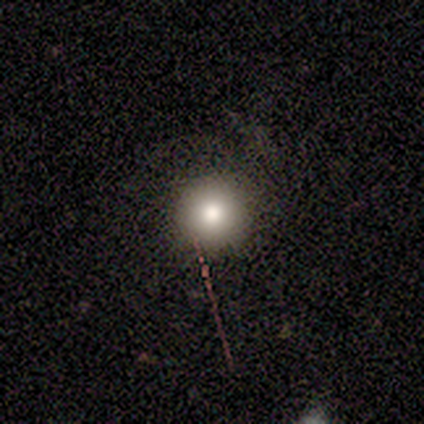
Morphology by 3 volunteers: A smooth galaxy with no disk features (100%) that is round (100%).

Vote fractions:
- Smooth or featured? smooth: 100% / featured or disk: 0% / star or artifact: 0%
- How rounded? round: 100% / in between: 0% / cigar-shaped: 0%
- Merging? none: 100% / minor disturbance: 0% / major disturbance: 0% / merger: 0%